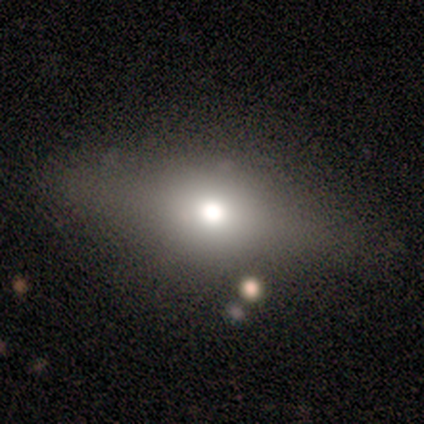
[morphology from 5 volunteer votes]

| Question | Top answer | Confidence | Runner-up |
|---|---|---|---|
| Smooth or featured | smooth | 80% | star or artifact (20%) |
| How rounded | in between | 75% | cigar-shaped (25%) |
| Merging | none | 100% | — |